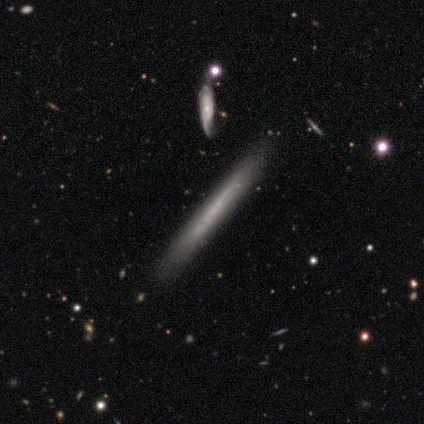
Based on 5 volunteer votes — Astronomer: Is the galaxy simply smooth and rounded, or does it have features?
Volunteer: featured or disk — 80%.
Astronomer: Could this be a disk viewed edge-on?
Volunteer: yes — 50%, tied with no at 50%.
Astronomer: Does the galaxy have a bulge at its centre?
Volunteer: none — 100%.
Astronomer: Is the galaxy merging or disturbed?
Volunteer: none — 100%.